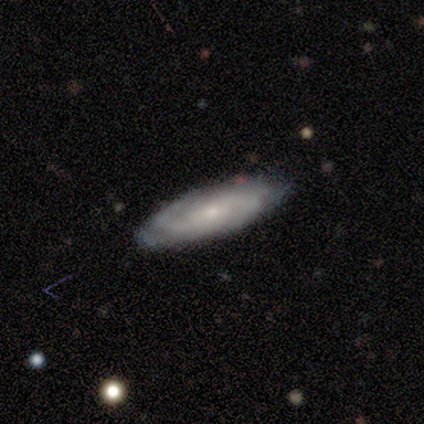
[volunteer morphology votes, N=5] smooth-or-featured: featured or disk: 80% | smooth: 20% | star or artifact: 0%
  disk-edge-on: no: 75% | yes: 25%
    bar: weak: 100% | strong: 0% | no: 0%
    has-spiral-arms: yes: 100% | no: 0%
      spiral-winding: medium: 67% | tight: 33% | loose: 0%
      spiral-arm-count: 2: 67% | 3: 33% | 1: 0% | 4: 0% | more than 4: 0% | can't tell: 0%
    bulge-size: small: 100% | dominant: 0% | large: 0% | moderate: 0% | none: 0%
  merging: none: 100% | minor disturbance: 0% | major disturbance: 0% | merger: 0%